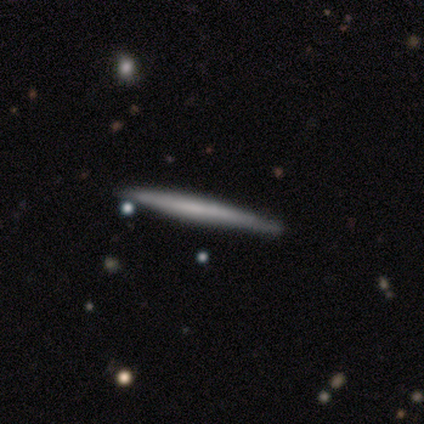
Smooth or featured? smooth (40%, tied with featured or disk)
How rounded? cigar-shaped (100%)
Merging? none (100%)